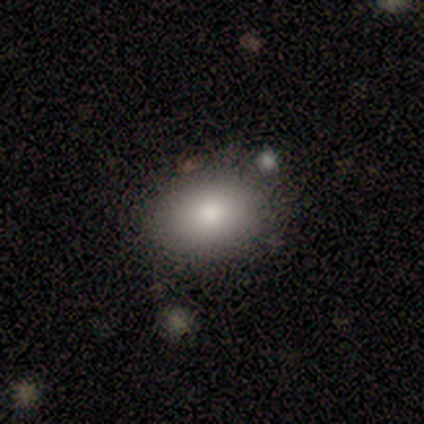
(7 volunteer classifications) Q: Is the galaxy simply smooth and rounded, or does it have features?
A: smooth — 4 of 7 (57%).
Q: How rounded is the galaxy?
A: in between — 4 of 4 (100%).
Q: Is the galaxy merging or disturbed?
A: none — 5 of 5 (100%).